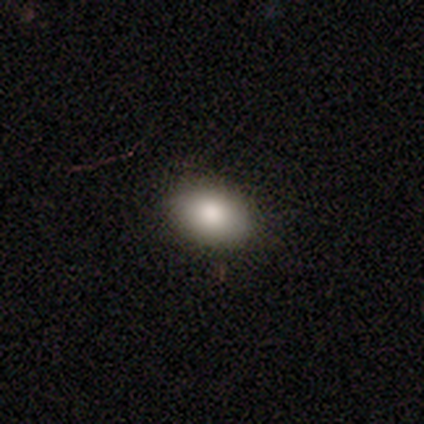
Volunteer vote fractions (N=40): smooth_or_featured: smooth (p=1.00)
how_rounded: in between (p=0.85) [alt: round p=0.15]
merging: none (p=0.95) [alt: minor disturbance p=0.05]